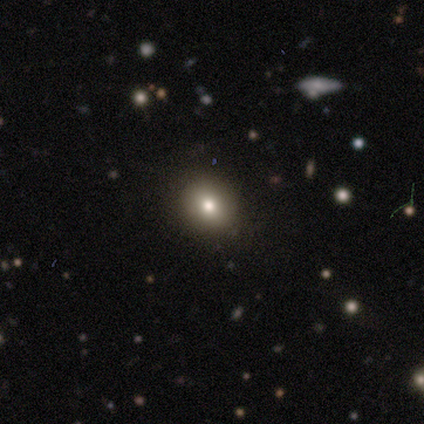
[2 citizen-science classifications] Overall: smooth (50%, tied with star or artifact). How rounded: round (100%). Merging: none (100%).